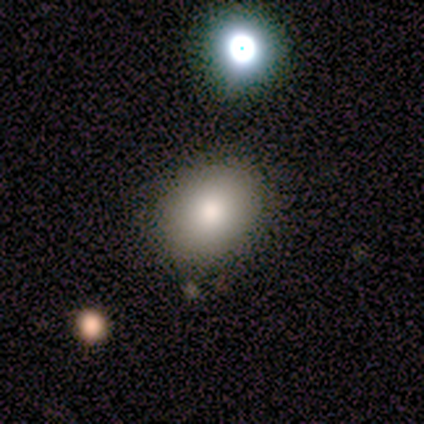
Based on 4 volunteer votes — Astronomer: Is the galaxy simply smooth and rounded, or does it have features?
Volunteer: smooth — 75%.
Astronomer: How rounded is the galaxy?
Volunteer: round — 67%.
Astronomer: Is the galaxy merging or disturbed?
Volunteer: none — 100%.